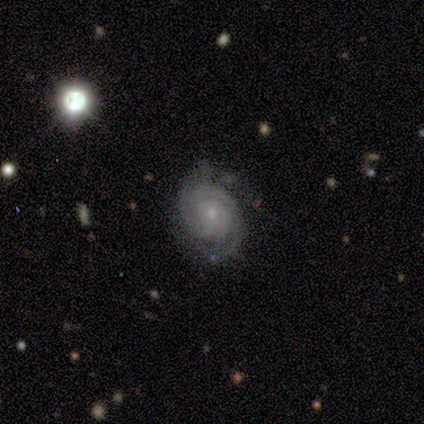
A featured or disk galaxy (100%) with no bar (100%), 2 (40%, tied with can't tell) tight (100%) spiral arms (100%) and a small central bulge (60%). Merging: none (60%).